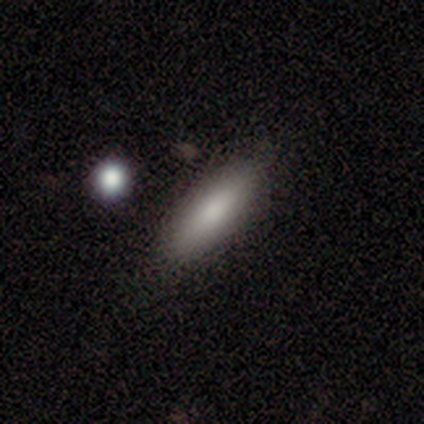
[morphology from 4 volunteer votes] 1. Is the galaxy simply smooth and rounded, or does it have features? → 100% smooth, 0% featured or disk, 0% star or artifact.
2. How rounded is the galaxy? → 50% in between (tied), 50% cigar-shaped (tied), 0% round.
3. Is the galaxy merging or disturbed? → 75% none, 25% minor disturbance, 0% major disturbance, 0% merger.